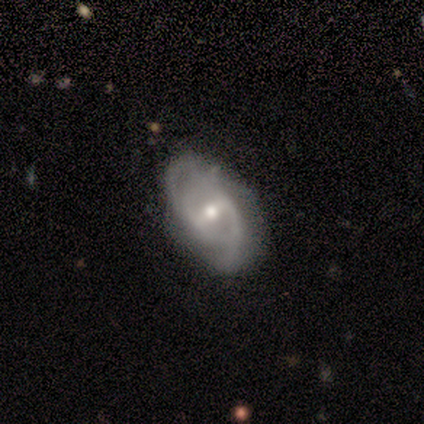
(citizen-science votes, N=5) A featured or disk galaxy (100%) with a strong bar (75%), 2 (50%, tied with can't tell) medium (75%) spiral arms (100%) and a moderate central bulge (75%). Merging: none (80%).